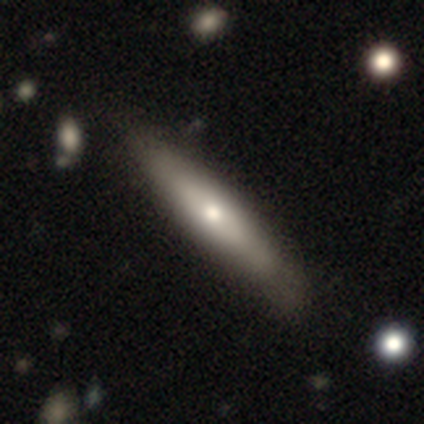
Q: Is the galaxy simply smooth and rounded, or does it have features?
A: smooth — 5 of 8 (62%).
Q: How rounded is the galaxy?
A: cigar-shaped — 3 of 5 (60%).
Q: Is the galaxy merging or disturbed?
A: none — 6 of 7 (86%).